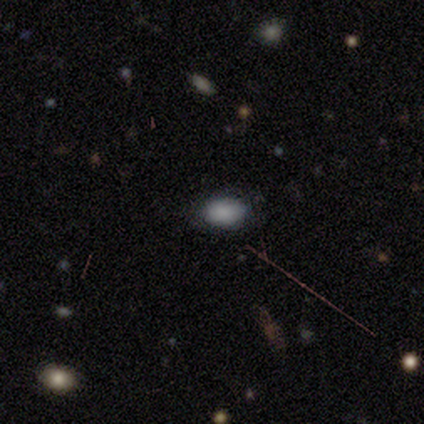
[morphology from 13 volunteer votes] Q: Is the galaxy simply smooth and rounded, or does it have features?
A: smooth — 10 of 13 (77%).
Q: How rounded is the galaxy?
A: in between — 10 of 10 (100%).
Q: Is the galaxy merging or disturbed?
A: none — 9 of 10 (90%).